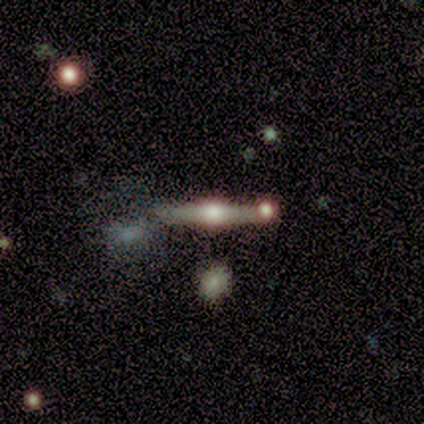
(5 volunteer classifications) A featured or disk galaxy (80%) viewed edge-on (75%) with a rounded central bulge (100%).

Vote fractions:
- Smooth or featured? featured or disk: 80% / smooth: 20% / star or artifact: 0%
- Edge-on disk? yes: 75% / no: 25%
- Edge-on bulge? rounded: 100% / boxy: 0% / none: 0%
- Merging? none: 80% / major disturbance: 20% / minor disturbance: 0% / merger: 0%